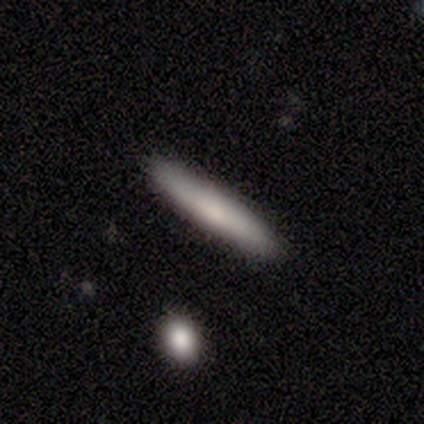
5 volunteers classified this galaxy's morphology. This is likely a smooth galaxy (60%). How rounded: clearly cigar-shaped (100%). Merging: clearly none (100%).